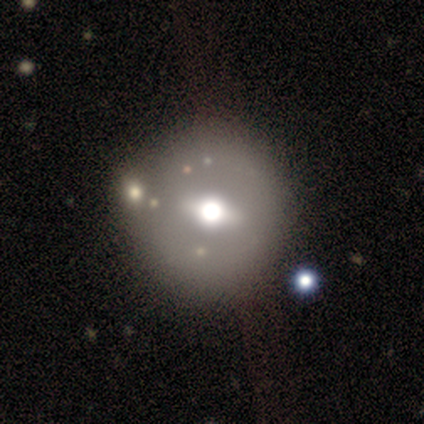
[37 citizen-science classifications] This appears to be a featured or disk galaxy (51%) with a weak bar (56%), no spiral arms (100%) and a moderate central bulge (56%). Merging: none (73%).